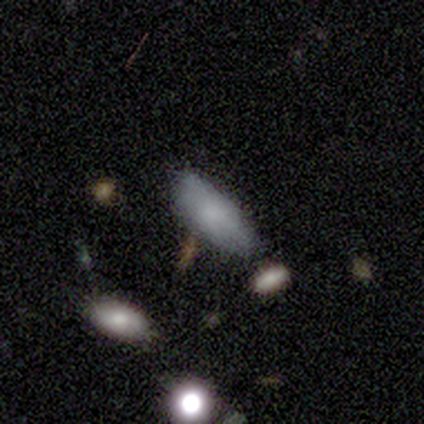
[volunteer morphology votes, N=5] smooth_or_featured: smooth (p=1.00)
how_rounded: in between (p=1.00)
merging: none (p=0.80) [alt: minor disturbance p=0.20]